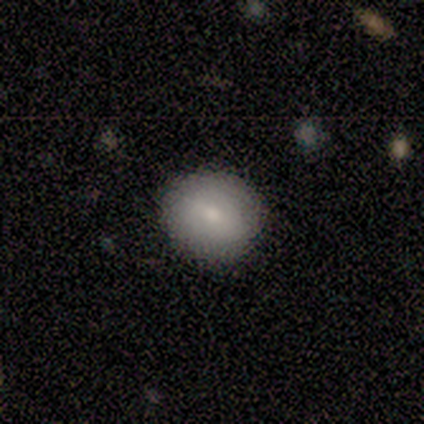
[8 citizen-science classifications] Smooth or featured? 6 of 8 (75%) said smooth. How rounded? 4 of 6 (67%) said round. Merging? 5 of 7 (71%) said none.